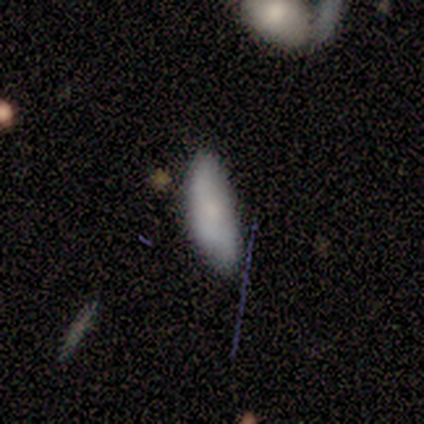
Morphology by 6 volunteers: This is clearly a smooth galaxy (100%). How rounded: possibly in between (50%, tied with cigar-shaped). Merging: possibly none (50%).